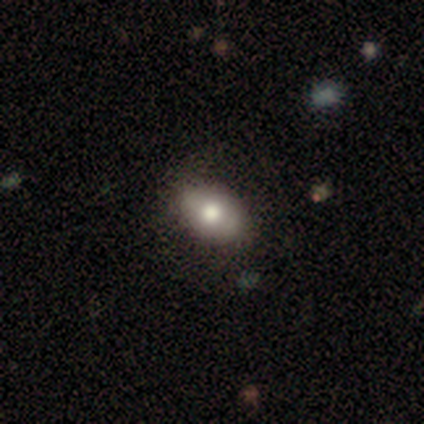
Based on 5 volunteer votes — Smooth or featured? 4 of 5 (80%) said smooth. How rounded? 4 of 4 (100%) said in between. Merging? 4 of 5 (80%) said none.